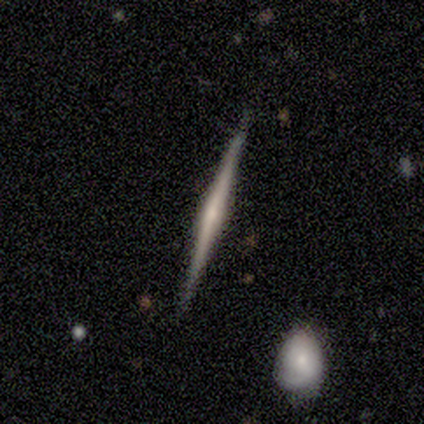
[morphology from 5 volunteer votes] Smooth or featured? 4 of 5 (80%) said featured or disk. Edge-on disk? 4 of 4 (100%) said yes. Edge-on bulge? 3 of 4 (75%) said rounded. Merging? 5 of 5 (100%) said none.